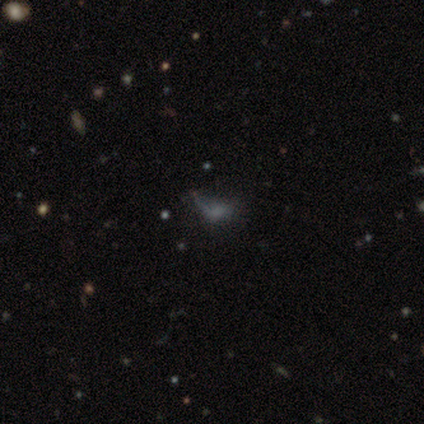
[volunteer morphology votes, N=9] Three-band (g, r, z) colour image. It shows a star or artifact, not a galaxy (56%).